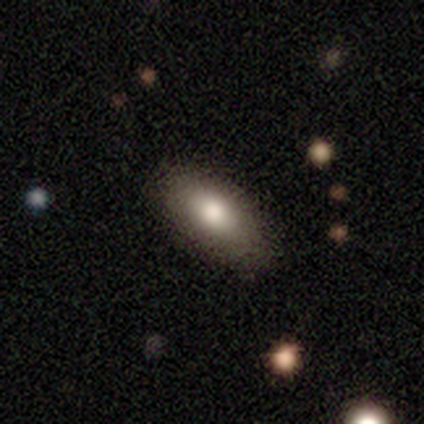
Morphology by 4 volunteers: Overall: smooth (75%). How rounded: in between (100%). Merging: none (75%).